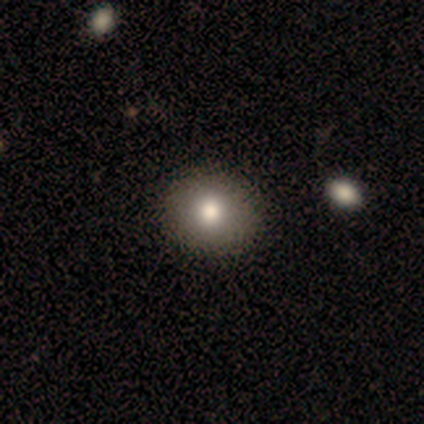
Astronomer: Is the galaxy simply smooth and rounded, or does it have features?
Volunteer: smooth — 100%.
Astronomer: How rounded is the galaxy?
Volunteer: round — 80%.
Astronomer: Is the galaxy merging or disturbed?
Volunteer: none — 80%.